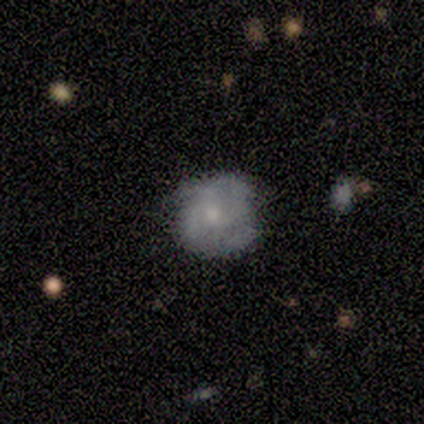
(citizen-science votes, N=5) Overall: featured or disk (60%; smooth 40%). Edge-on disk: no (100%). Bar: no (100%). Spiral arms: yes (67%; no 33%). Spiral arm count: 2 (100%). Spiral winding: tight (50%, tied with medium). Bulge size: small (67%; moderate 33%). Merging: none (60%; minor disturbance 40%).